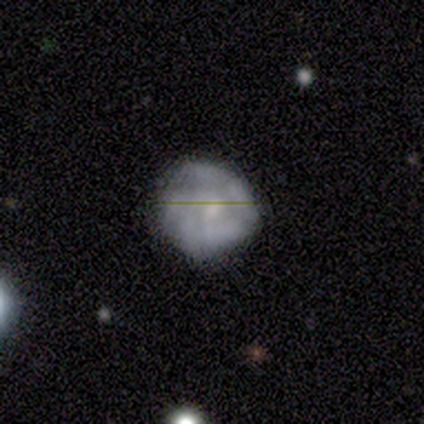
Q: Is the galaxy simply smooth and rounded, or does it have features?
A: featured or disk — 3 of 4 (75%).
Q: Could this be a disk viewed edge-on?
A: no — 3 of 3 (100%).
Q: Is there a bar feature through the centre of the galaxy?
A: no — 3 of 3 (100%).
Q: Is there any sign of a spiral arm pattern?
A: no — 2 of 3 (67%).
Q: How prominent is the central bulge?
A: small — 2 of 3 (67%).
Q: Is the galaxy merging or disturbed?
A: none — 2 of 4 (50%, tied with minor disturbance).